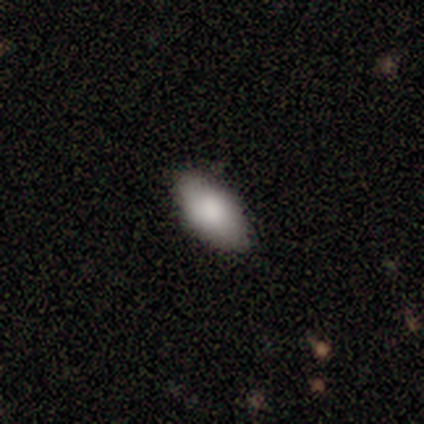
Morphology: type=smooth (81%); roundness=in between (91%); merging=none (89%).